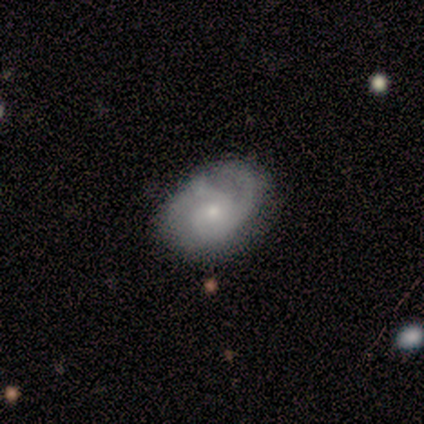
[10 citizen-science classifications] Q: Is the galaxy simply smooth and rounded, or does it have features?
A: smooth — 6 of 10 (60%).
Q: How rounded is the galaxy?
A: in between — 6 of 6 (100%).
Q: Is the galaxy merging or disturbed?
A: none — 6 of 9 (67%).